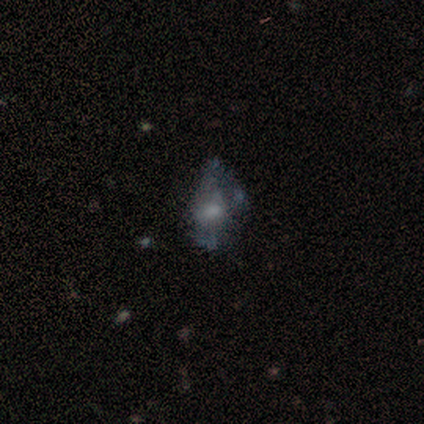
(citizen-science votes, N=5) Smooth or featured: smooth — 60% (featured or disk — 20%)
How rounded: in between — 100%
Merging: minor disturbance — 50% (tied with major disturbance — 50%)